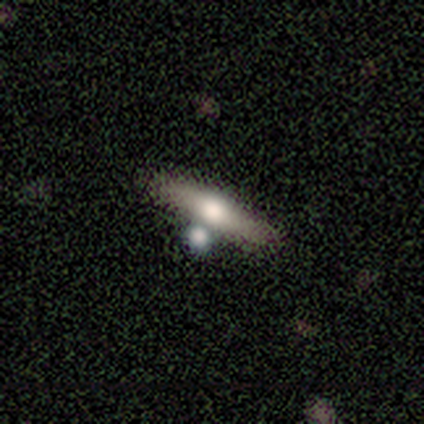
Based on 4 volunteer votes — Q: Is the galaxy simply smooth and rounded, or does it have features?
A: smooth — 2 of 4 (50%, tied with featured or disk).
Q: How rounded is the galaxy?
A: cigar-shaped — 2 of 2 (100%).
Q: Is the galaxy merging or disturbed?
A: none — 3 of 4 (75%).